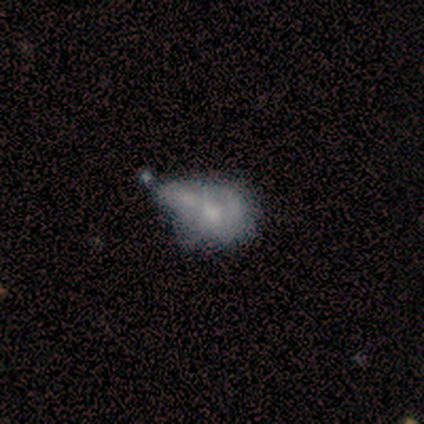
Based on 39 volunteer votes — A featured or disk galaxy (54%) with no bar (90%), no spiral arms (95%) and a moderate central bulge (43%). Merging: merger (45%).